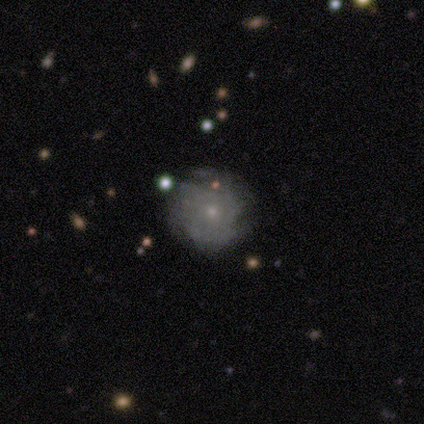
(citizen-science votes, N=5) Overall: featured or disk (100%). Edge-on disk: no (100%). Bar: no (80%). Spiral arms: yes (100%). Spiral arm count: can't tell (60%; 3 40%). Spiral winding: tight (40%, tied with medium). Bulge size: small (100%). Merging: none (60%; minor disturbance 40%).